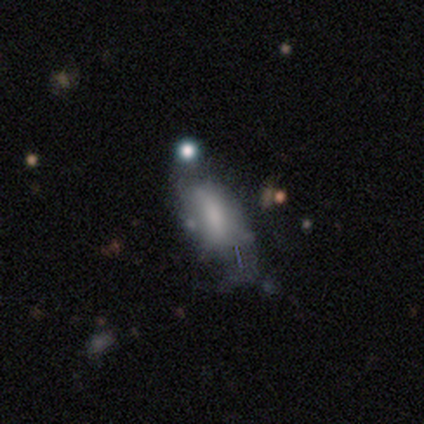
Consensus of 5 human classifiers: smooth-or-featured: smooth: 40% (tied) | featured or disk: 40% (tied) | star or artifact: 20%
  how-rounded: in between: 50% (tied) | cigar-shaped: 50% (tied) | round: 0%
  merging: minor disturbance: 50% | none: 25% | merger: 25% | major disturbance: 0%